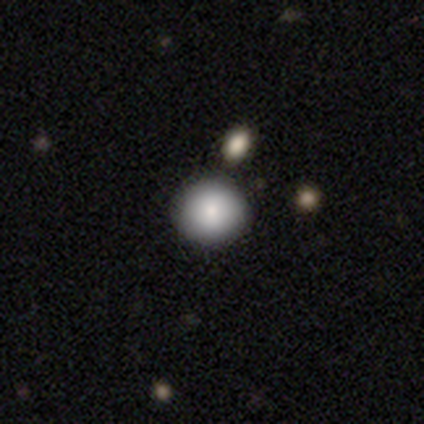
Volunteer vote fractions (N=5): Smooth or featured: smooth — 100%
How rounded: round — 100%
Merging: none — 100%